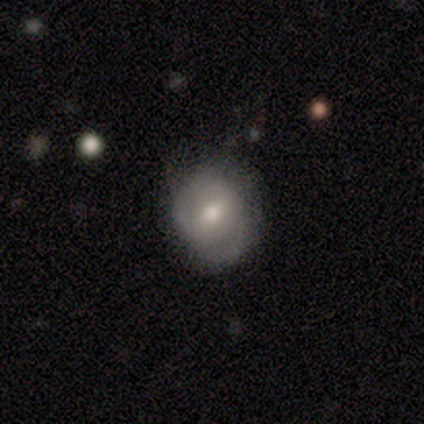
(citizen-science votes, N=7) This is possibly a featured or disk galaxy (57%). It is clearly not viewed edge-on (100%). Bar: likely no (75%). Spiral arm pattern: likely no (75%). Central bulge: likely moderate (75%). Merging: marginally none (43%, tied with minor disturbance).